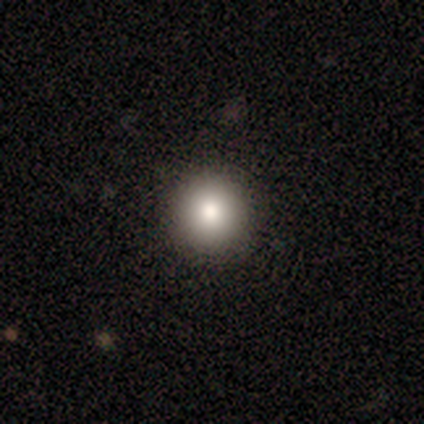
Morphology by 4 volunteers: smooth 75%, featured or disk 25%, star or artifact 0%. Down the decision tree: how rounded — round (100%); merging — none (100%).